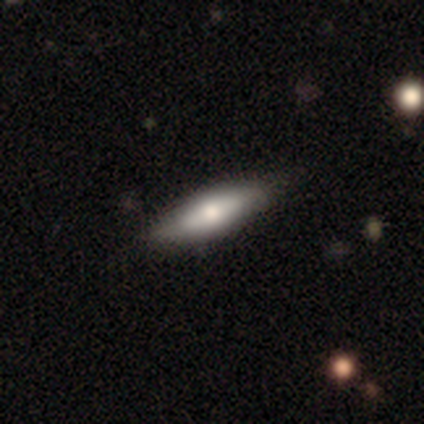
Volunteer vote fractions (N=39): This is likely a smooth galaxy (67%). How rounded: possibly cigar-shaped (58%). Merging: likely none (61%).